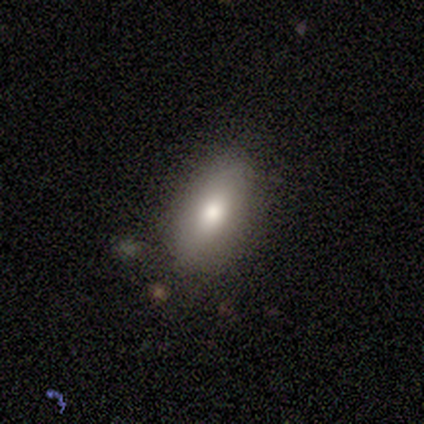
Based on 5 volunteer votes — This is clearly a smooth galaxy (80%). How rounded: likely in between (75%). Merging: clearly none (100%).